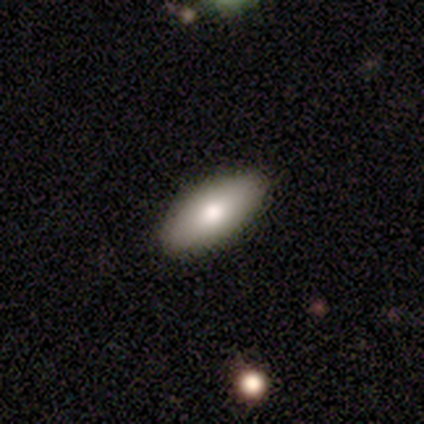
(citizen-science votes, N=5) Q: Smooth or featured?
A: smooth (80%); runner-up: featured or disk (20%)
Q: How rounded?
A: in between (100%)
Q: Merging?
A: none (80%); runner-up: minor disturbance (20%)